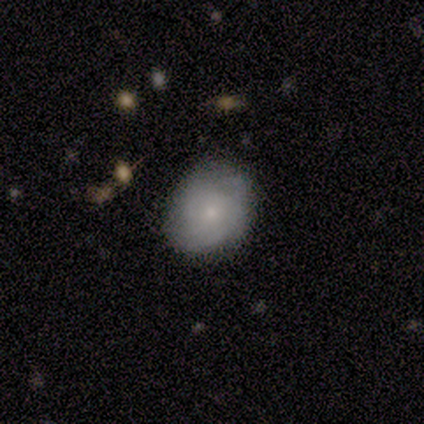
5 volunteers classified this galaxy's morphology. smooth-or-featured: featured or disk: 80% | smooth: 20% | star or artifact: 0%
  disk-edge-on: no: 100% | yes: 0%
    bar: no: 100% | strong: 0% | weak: 0%
    has-spiral-arms: yes: 75% | no: 25%
      spiral-winding: tight: 67% | loose: 33% | medium: 0%
      spiral-arm-count: can't tell: 100% | 1: 0% | 2: 0% | 3: 0% | 4: 0% | more than 4: 0%
    bulge-size: small: 100% | dominant: 0% | large: 0% | moderate: 0% | none: 0%
  merging: none: 100% | minor disturbance: 0% | major disturbance: 0% | merger: 0%